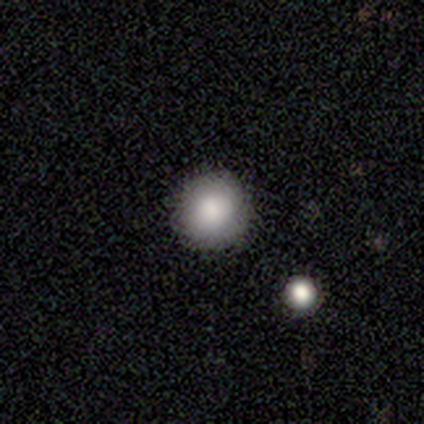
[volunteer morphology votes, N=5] A smooth galaxy with no disk features (100%) that is round (80%). Merging: none (100%).